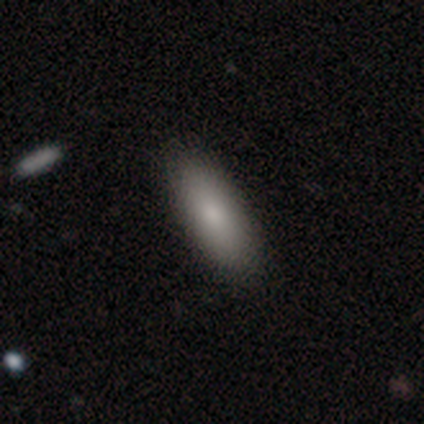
Volunteers were most divided on "how rounded": in between: 80%, cigar-shaped: 20%, round: 0%. More confident: smooth or featured — smooth (100%); merging — none (100%).